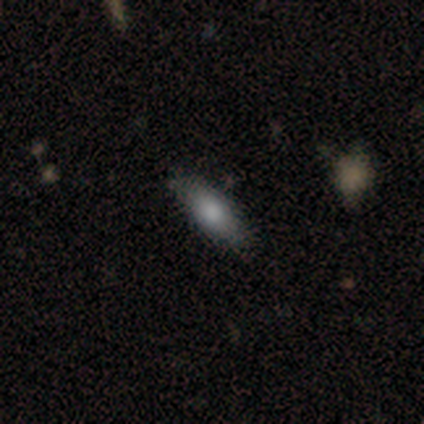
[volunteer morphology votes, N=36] type=smooth (67%); roundness=in between (67%); merging=none (79%).